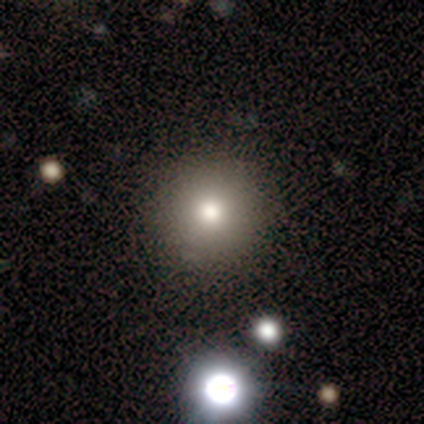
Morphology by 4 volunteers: This appears to be a smooth galaxy with no disk features (75%) that is round (100%). Merging: none (100%).